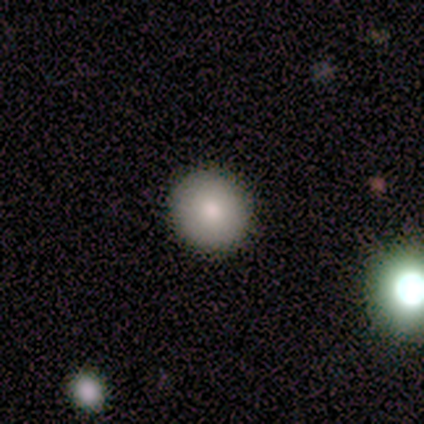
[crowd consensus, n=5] smooth_or_featured: smooth (p=0.80) [alt: featured or disk p=0.20]
how_rounded: round (p=1.00)
merging: none (p=0.80) [alt: minor disturbance p=0.20]